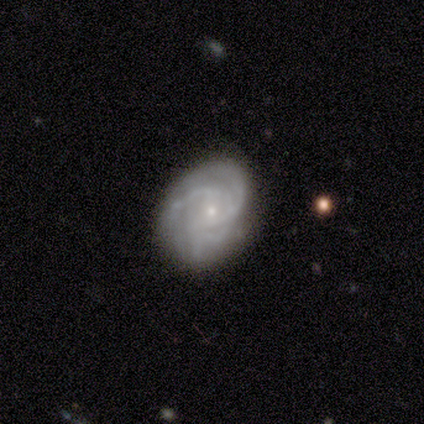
Smooth or featured? 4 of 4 (100%) said featured or disk. Edge-on disk? 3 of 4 (75%) said no. Bar? 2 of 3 (67%) said no. Spiral arms? 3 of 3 (100%) said yes. Spiral winding? 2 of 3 (67%) said medium. Spiral arm count? 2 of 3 (67%) said 3. Bulge size? 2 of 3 (67%) said small. Merging? 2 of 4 (50%) said none.